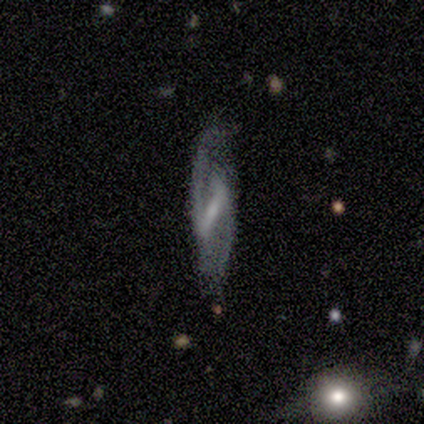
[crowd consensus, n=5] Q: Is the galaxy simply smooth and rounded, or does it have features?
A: featured or disk — 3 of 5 (60%).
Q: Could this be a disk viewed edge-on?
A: no — 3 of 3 (100%).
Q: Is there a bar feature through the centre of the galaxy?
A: strong — 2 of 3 (67%).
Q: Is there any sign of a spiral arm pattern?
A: yes — 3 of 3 (100%).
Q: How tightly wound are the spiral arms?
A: tight — 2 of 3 (67%).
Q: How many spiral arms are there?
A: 2 — 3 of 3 (100%).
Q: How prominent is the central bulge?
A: small — 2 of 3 (67%).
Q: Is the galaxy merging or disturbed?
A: none — 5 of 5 (100%).